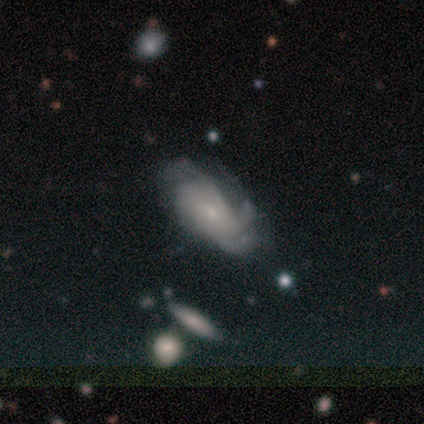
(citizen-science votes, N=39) Overall: featured or disk (74%). Edge-on disk: no (93%). Bar: no (70%). Spiral arms: yes (93%). Spiral arm count: can't tell (48%; 4 20%). Spiral winding: tight (44%, tied with medium). Bulge size: small (74%). Merging: none (51%; minor disturbance 27%).